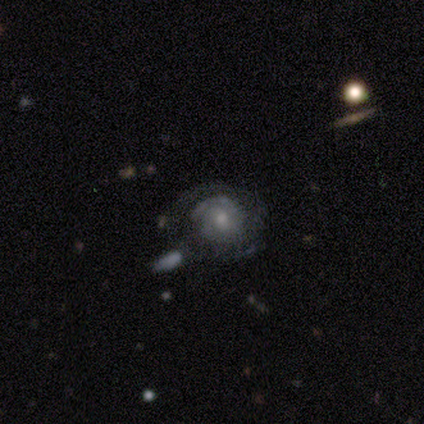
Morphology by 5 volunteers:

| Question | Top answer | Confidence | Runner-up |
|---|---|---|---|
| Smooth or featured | featured or disk | 100% | — |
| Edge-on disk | no | 80% | yes (20%) |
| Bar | no | 75% | weak (25%) |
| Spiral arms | yes | 100% | — |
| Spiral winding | tight | 50% | medium (25%) |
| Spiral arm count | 2 | 50% | tied: can't tell (50%) |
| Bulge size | moderate | 50% | tied: small (50%) |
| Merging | none | 80% | major disturbance (20%) |